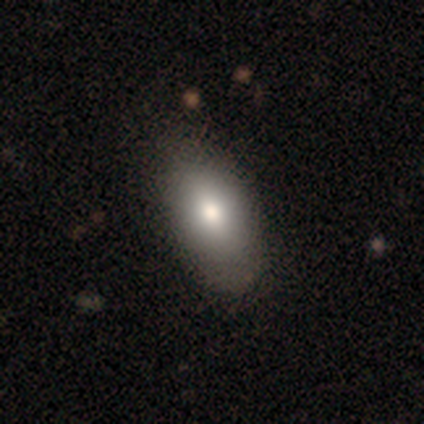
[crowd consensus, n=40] Q: Smooth or featured?
A: smooth (75%); runner-up: featured or disk (20%)
Q: How rounded?
A: in between (97%); runner-up: cigar-shaped (3%)
Q: Merging?
A: none (53%); runner-up: minor disturbance (8%)